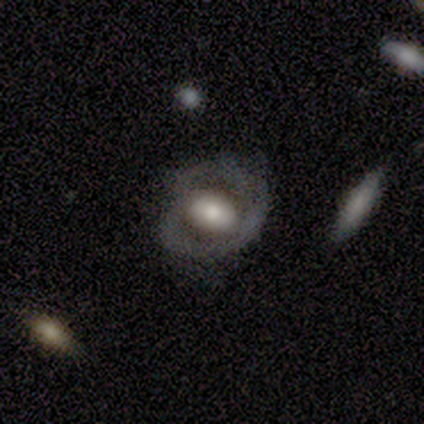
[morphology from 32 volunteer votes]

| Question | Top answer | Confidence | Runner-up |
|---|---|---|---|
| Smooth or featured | featured or disk | 59% | smooth (31%) |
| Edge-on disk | no | 89% | yes (11%) |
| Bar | no | 76% | strong (12%) |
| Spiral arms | no | 65% | yes (35%) |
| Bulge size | moderate | 59% | large (29%) |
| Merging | none | 52% | minor disturbance (38%) |